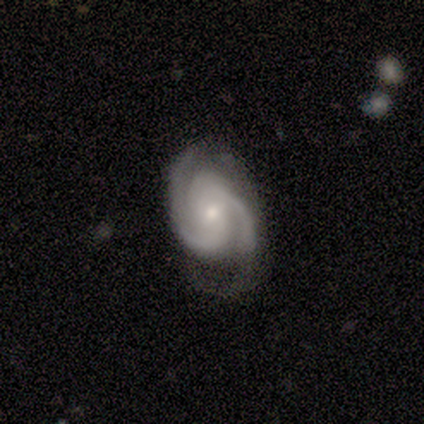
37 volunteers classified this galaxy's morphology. Overall: featured or disk (100%). Edge-on disk: no (100%). Bar: no (51%; weak 38%). Spiral arms: yes (97%). Spiral arm count: 2 (44%, tied with 3). Spiral winding: tight (53%; medium 44%). Bulge size: small (49%; moderate 41%). Merging: none (59%; minor disturbance 30%).